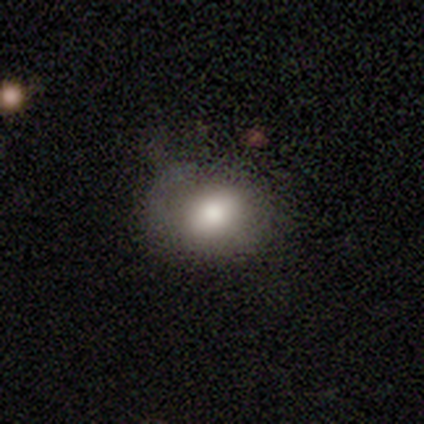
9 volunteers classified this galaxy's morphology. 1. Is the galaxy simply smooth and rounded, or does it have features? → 89% smooth, 11% star or artifact, 0% featured or disk.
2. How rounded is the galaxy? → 62% in between, 38% round, 0% cigar-shaped.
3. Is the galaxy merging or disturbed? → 50% none, 38% minor disturbance, 12% major disturbance, 0% merger.